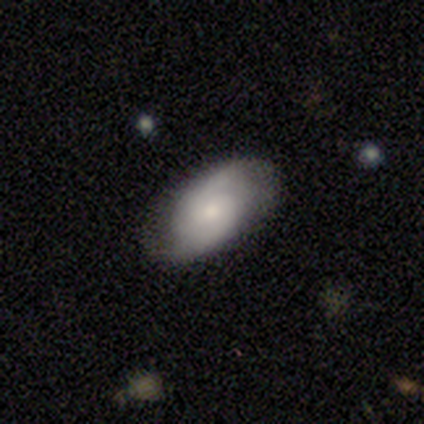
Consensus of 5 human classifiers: Morphology: type=featured or disk (80%); edge-on=no (100%); bar=no (75%); spiral arms=yes (100%); winding=medium (50%); arm count=2 (100%); bulge=small (75%); merging=none (80%).